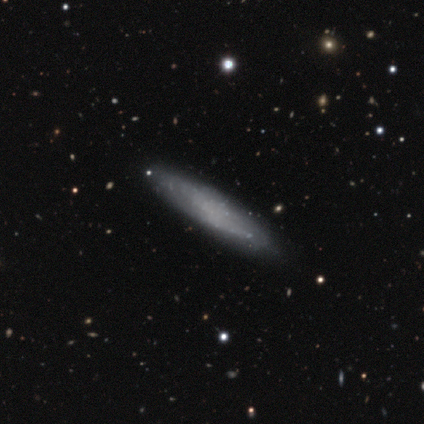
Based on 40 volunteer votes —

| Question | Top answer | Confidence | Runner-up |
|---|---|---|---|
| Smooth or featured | featured or disk | 60% | smooth (38%) |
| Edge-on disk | no | 71% | yes (29%) |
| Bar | no | 88% | weak (12%) |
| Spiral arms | yes | 59% | no (41%) |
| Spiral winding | medium | 50% | loose (30%) |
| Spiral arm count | can't tell | 60% | 2 (30%) |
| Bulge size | none | 88% | moderate (6%) |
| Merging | none | 62% | minor disturbance (8%) |